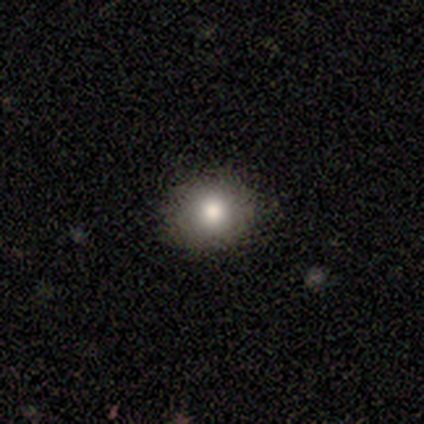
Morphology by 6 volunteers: Smooth or featured? smooth (83%)
How rounded? round (100%)
Merging? none (100%)